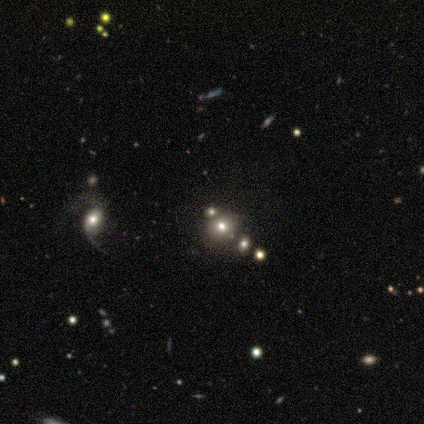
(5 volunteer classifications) Smooth or featured? 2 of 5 (40%, tied with star or artifact) said smooth. How rounded? 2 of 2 (100%) said round. Merging? 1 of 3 (33%, tied with minor disturbance and merger) said none.